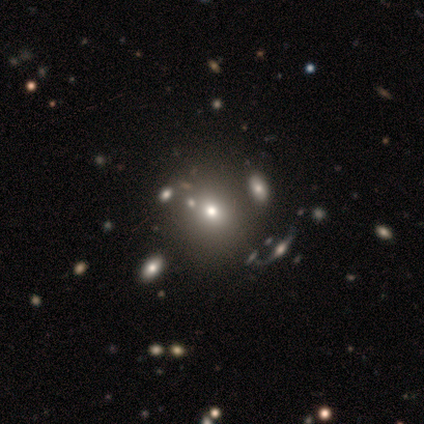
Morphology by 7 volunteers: A smooth galaxy with no disk features (71%) that is round (100%).

Vote fractions:
- Smooth or featured? smooth: 71% / featured or disk: 29% / star or artifact: 0%
- How rounded? round: 100% / in between: 0% / cigar-shaped: 0%
- Merging? none: 57% / minor disturbance: 14% / major disturbance: 14% / merger: 14%